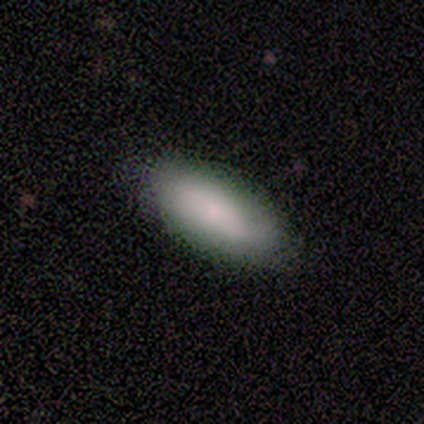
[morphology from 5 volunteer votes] Volunteers were most divided on "how rounded": in between: 80%, cigar-shaped: 20%, round: 0%. More confident: smooth or featured — smooth (100%); merging — none (80%).